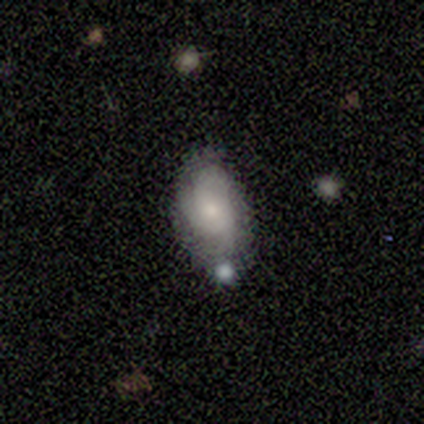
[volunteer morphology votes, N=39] Smooth or featured: featured or disk — 51% (smooth — 44%)
Edge-on disk: no — 100%
Bar: no — 75% (weak — 20%)
Spiral arms: yes — 80% (no — 20%)
Spiral winding: tight — 56% (medium — 25%)
Spiral arm count: can't tell — 44% (3 — 38%)
Bulge size: moderate — 40% (tied with small — 40%)
Merging: none — 57% (minor disturbance — 27%)